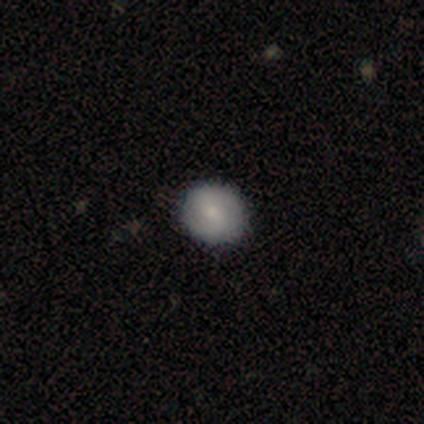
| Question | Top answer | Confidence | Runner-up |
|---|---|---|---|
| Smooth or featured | smooth | 83% | featured or disk (17%) |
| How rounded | round | 60% | in between (40%) |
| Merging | none | 83% | minor disturbance (17%) |